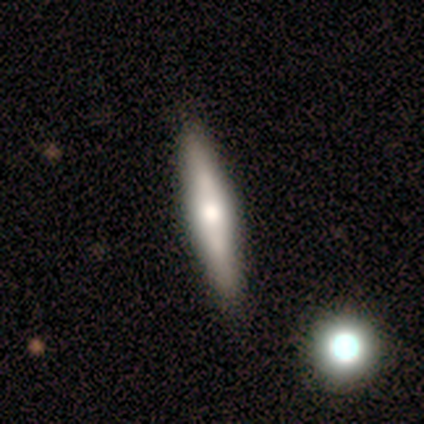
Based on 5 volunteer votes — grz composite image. It shows a featured or disk galaxy (60%) viewed edge-on (67%) with a rounded central bulge (100%). Merging: none (80%).